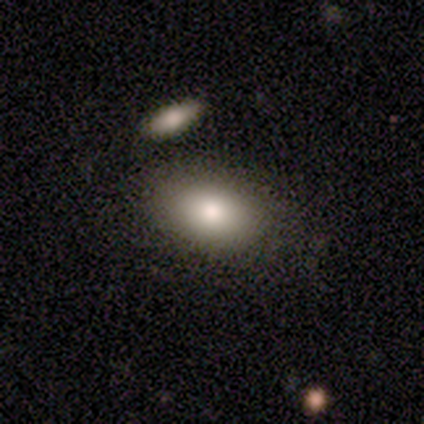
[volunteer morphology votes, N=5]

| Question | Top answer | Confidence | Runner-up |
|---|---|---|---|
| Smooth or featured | smooth | 100% | — |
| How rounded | in between | 80% | round (20%) |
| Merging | none | 80% | merger (20%) |